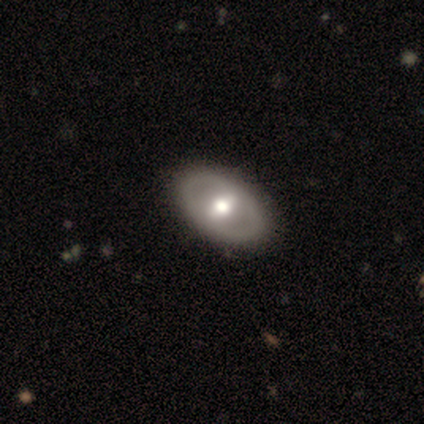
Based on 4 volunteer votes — Smooth or featured: featured or disk — 75% (smooth — 25%)
Edge-on disk: no — 100%
Bar: weak — 67% (strong — 33%)
Spiral arms: yes — 67% (no — 33%)
Spiral winding: medium — 50% (tied with loose — 50%)
Spiral arm count: 1 — 50% (tied with 2 — 50%)
Bulge size: dominant — 33% (tied with moderate — 33%; small — 33%)
Merging: none — 100%